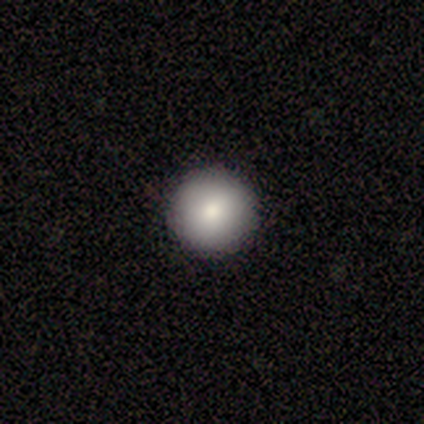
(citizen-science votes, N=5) A smooth galaxy with no disk features (100%) that is round (100%).

Vote fractions:
- Smooth or featured? smooth: 100% / featured or disk: 0% / star or artifact: 0%
- How rounded? round: 100% / in between: 0% / cigar-shaped: 0%
- Merging? none: 100% / minor disturbance: 0% / major disturbance: 0% / merger: 0%